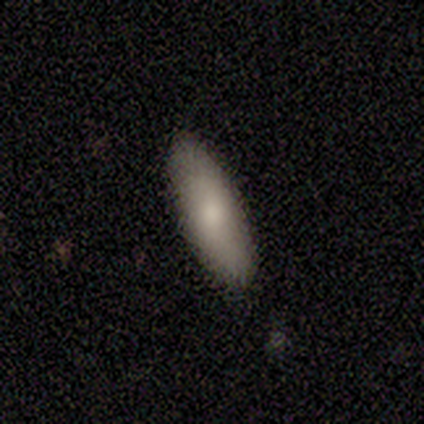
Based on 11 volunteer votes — Overall: smooth (82%). How rounded: in between (89%). Merging: none (73%).